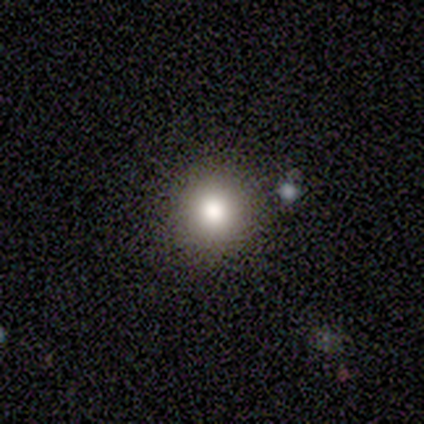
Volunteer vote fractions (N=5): Q: Smooth or featured?
A: smooth (100%)
Q: How rounded?
A: round (100%)
Q: Merging?
A: none (80%); runner-up: minor disturbance (20%)